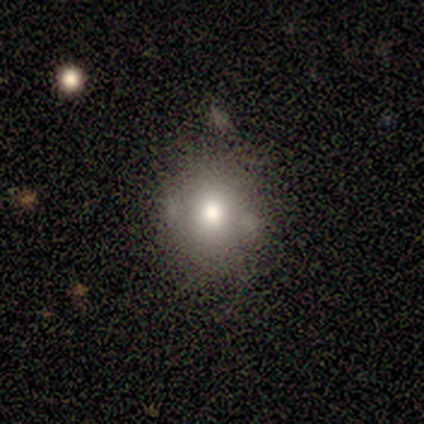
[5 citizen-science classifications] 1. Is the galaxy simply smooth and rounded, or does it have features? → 80% smooth, 20% star or artifact, 0% featured or disk.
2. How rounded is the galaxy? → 50% round (tied), 50% in between (tied), 0% cigar-shaped.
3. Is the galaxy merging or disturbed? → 100% none, 0% minor disturbance, 0% major disturbance, 0% merger.